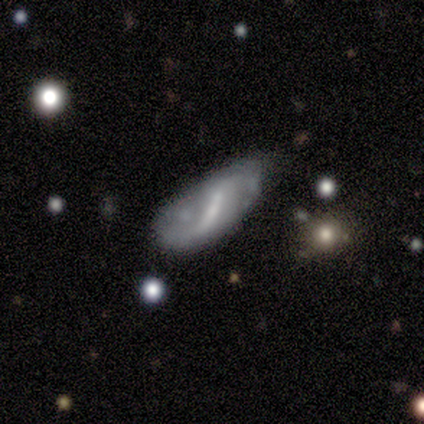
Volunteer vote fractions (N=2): smooth_or_featured: smooth (p=0.50) [tied with: featured or disk p=0.50]
how_rounded: in between (p=1.00)
merging: none (p=0.50) [tied with: minor disturbance p=0.50]